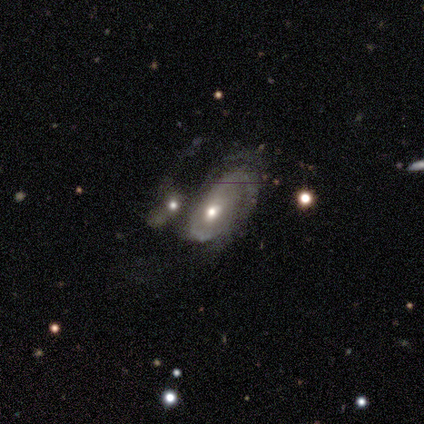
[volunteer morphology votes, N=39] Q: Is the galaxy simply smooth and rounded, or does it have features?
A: featured or disk — 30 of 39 (77%).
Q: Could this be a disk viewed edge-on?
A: no — 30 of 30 (100%).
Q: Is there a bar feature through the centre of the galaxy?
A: no — 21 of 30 (70%).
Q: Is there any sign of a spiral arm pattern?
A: yes — 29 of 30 (97%).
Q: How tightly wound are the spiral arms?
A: medium — 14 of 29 (48%).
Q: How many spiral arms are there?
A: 2 — 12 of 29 (41%).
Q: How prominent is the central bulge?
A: moderate — 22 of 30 (73%).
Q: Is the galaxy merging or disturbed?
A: merger — 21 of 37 (57%).